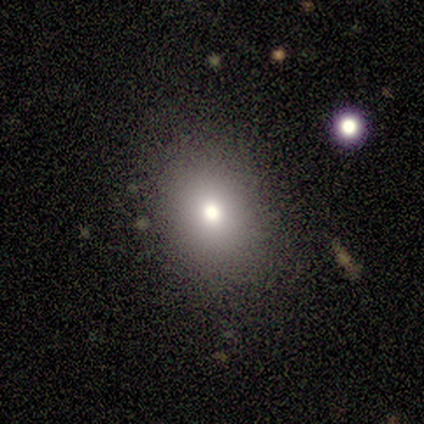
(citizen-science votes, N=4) smooth-or-featured: smooth: 100% | featured or disk: 0% | star or artifact: 0%
  how-rounded: in between: 75% | round: 25% | cigar-shaped: 0%
  merging: none: 75% | minor disturbance: 25% | major disturbance: 0% | merger: 0%